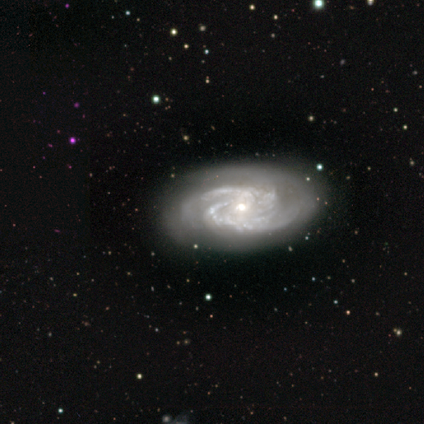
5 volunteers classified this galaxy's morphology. This appears to be a featured or disk galaxy (100%) with no bar (60%), 2 (80%) tight (40%, tied with loose) spiral arms (100%) and a moderate central bulge (60%). Merging: none (80%).